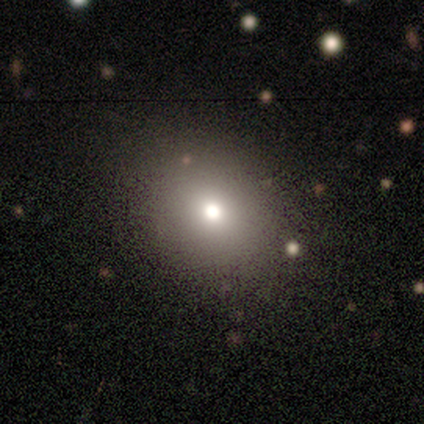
A smooth galaxy with no disk features (88%) that is round (57%).

Vote fractions:
- Smooth or featured? smooth: 88% / star or artifact: 12% / featured or disk: 0%
- How rounded? round: 57% / in between: 43% / cigar-shaped: 0%
- Merging? none: 86% / minor disturbance: 14% / major disturbance: 0% / merger: 0%